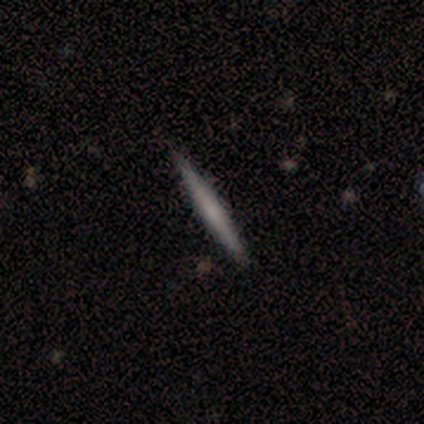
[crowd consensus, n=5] Q: Smooth or featured?
A: smooth (60%); runner-up: featured or disk (40%)
Q: How rounded?
A: cigar-shaped (100%)
Q: Merging?
A: none (80%); runner-up: minor disturbance (20%)